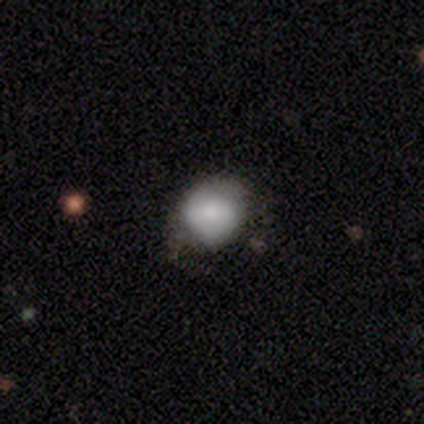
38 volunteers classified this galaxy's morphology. A smooth galaxy with no disk features (71%) that is round (81%). Merging: none (53%).